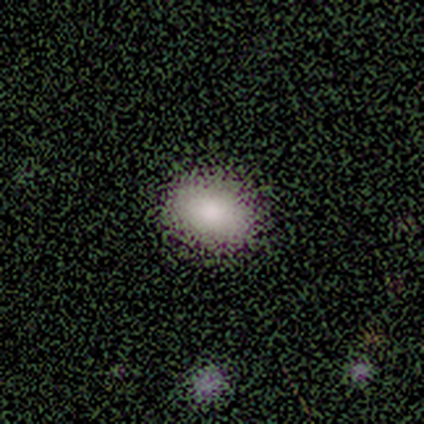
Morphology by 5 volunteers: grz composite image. It shows a smooth galaxy with no disk features (100%) that is in between round and cigar-shaped (80%). Merging: none (100%).